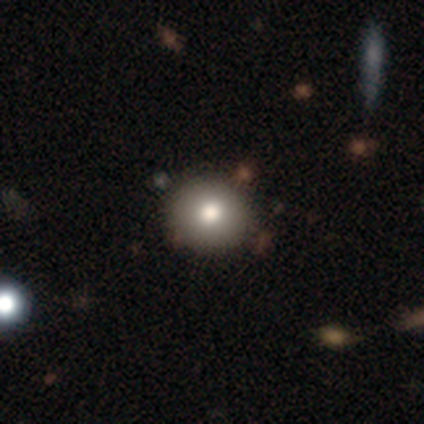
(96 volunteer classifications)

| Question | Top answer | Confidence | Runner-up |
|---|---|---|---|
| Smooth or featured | smooth | 81% | star or artifact (15%) |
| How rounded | round | 91% | in between (9%) |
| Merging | none | 90% | minor disturbance (5%) |